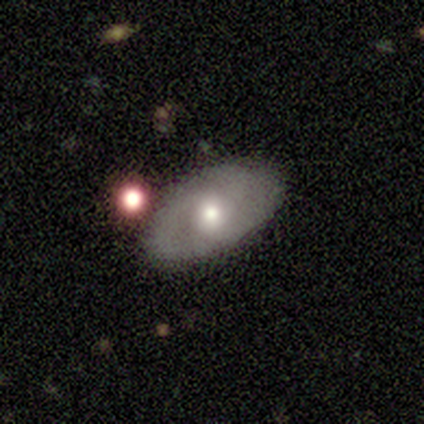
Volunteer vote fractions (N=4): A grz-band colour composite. It shows a smooth galaxy with no disk features (50%, tied with featured or disk) that is in between round and cigar-shaped (100%). Merging: none (50%).